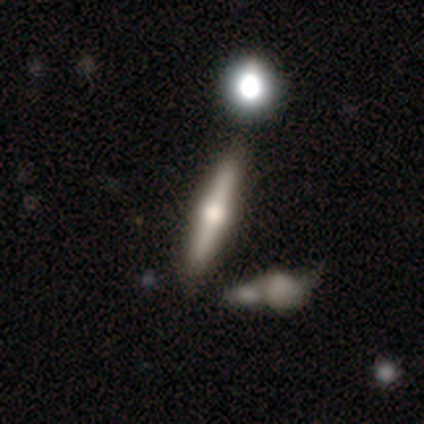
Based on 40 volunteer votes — A featured or disk galaxy (70%) viewed edge-on (100%) with a rounded central bulge (89%).

Vote fractions:
- Smooth or featured? featured or disk: 70% / smooth: 25% / star or artifact: 5%
- Edge-on disk? yes: 100% / no: 0%
- Edge-on bulge? rounded: 89% / none: 7% / boxy: 4%
- Merging? none: 82% / minor disturbance: 16% / merger: 3% / major disturbance: 0%